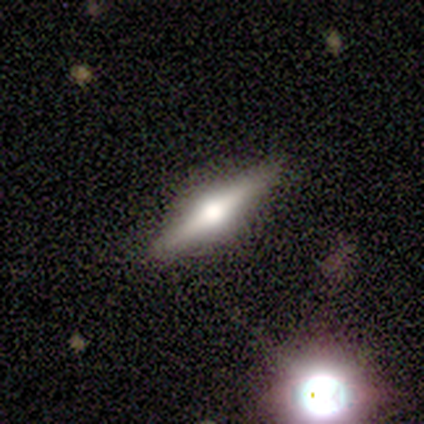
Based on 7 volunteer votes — This is clearly a featured or disk galaxy (100%). It is clearly viewed edge-on (100%). Edge-on bulge: clearly rounded (100%). Merging: clearly none (100%).